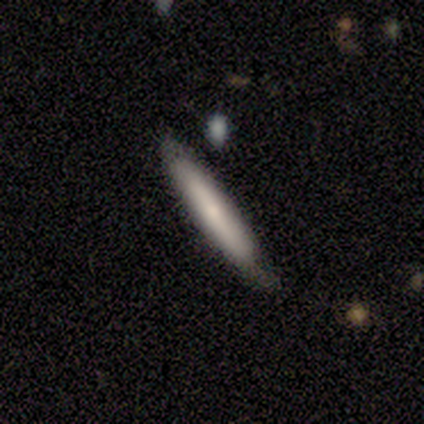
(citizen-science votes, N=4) Volunteers were most divided on "smooth or featured" (2-way tie): smooth: 50%, featured or disk: 50%, star or artifact: 0%. More confident: how rounded — cigar-shaped (100%); merging — minor disturbance (100%).